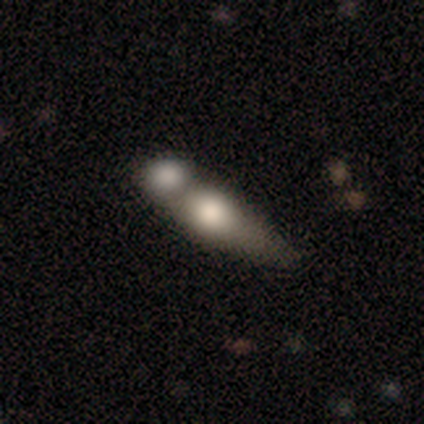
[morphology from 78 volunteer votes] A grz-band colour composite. It shows a smooth galaxy with no disk features (63%) that is in between round and cigar-shaped (63%). Merging: merger (64%).